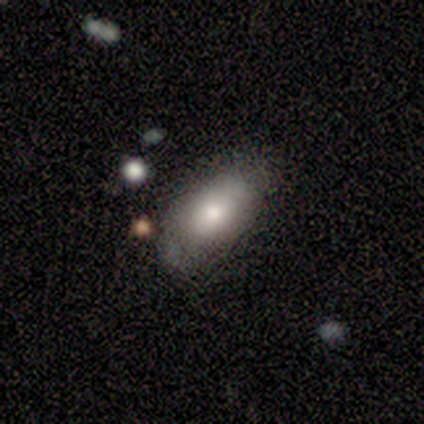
A smooth galaxy with no disk features (80%) that is in between round and cigar-shaped (100%).

Vote fractions:
- Smooth or featured? smooth: 80% / featured or disk: 20% / star or artifact: 0%
- How rounded? in between: 100% / round: 0% / cigar-shaped: 0%
- Merging? none: 60% / minor disturbance: 20% / major disturbance: 20% / merger: 0%